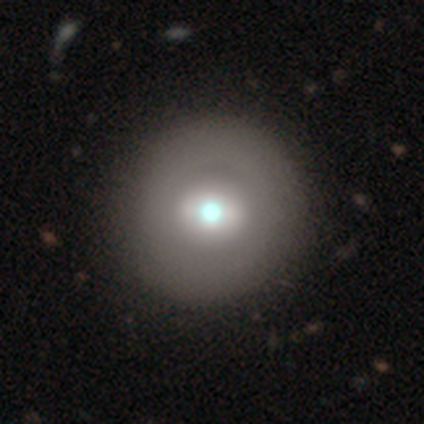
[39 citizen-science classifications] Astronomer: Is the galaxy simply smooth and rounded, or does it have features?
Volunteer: smooth — 64%.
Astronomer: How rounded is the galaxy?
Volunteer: round — 100%.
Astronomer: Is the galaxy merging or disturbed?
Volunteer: none — 78%.